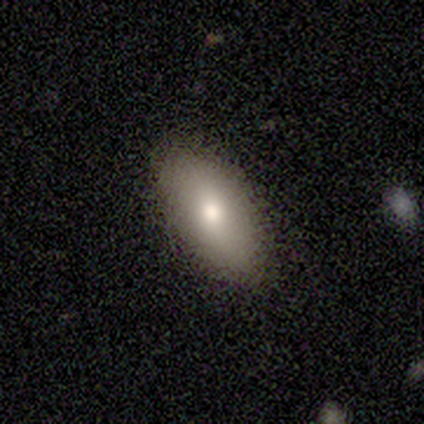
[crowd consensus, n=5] Morphology: type=smooth (60%); roundness=in between (100%); merging=none (100%).